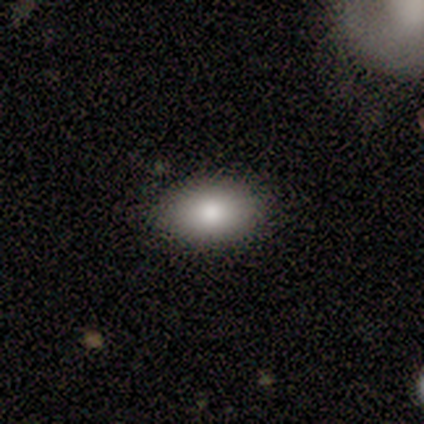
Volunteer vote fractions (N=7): smooth_or_featured: smooth (p=0.86) [alt: featured or disk p=0.14]
how_rounded: in between (p=1.00)
merging: none (p=1.00)